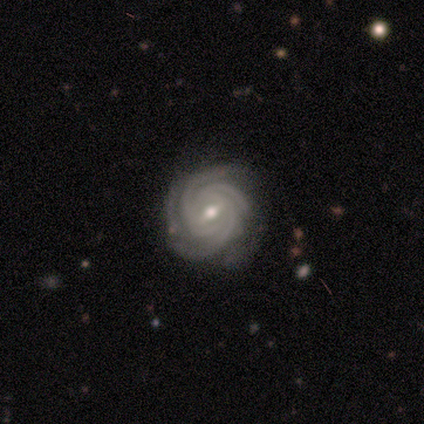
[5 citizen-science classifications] Morphology: type=featured or disk (100%); edge-on=no (100%); bar=strong (40%, tied with weak); spiral arms=yes (100%); winding=tight (80%); arm count=3 (40%); bulge=moderate (60%); merging=none (100%).